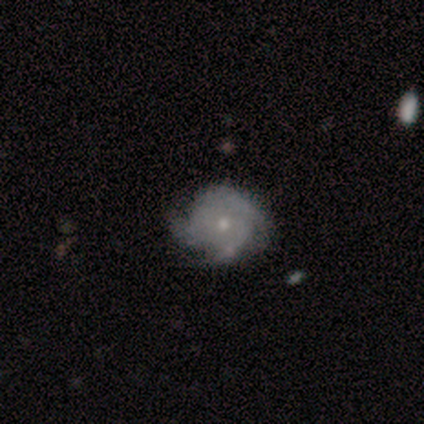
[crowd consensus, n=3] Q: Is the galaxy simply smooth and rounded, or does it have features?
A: featured or disk — 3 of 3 (100%).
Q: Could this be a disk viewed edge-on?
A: no — 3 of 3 (100%).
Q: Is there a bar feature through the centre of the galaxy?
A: no — 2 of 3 (67%).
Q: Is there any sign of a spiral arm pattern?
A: yes — 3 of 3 (100%).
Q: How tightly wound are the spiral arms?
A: tight — 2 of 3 (67%).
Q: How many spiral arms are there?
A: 3 — 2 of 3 (67%).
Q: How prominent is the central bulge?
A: moderate — 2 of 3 (67%).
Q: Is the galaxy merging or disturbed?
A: none — 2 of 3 (67%).